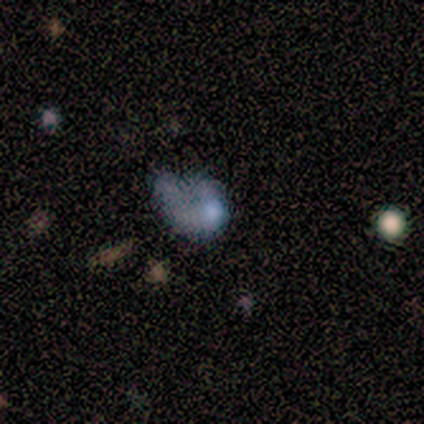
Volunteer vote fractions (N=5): Smooth or featured? 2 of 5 (40%, tied with star or artifact) said smooth. How rounded? 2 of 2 (100%) said in between. Merging? 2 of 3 (67%) said minor disturbance.